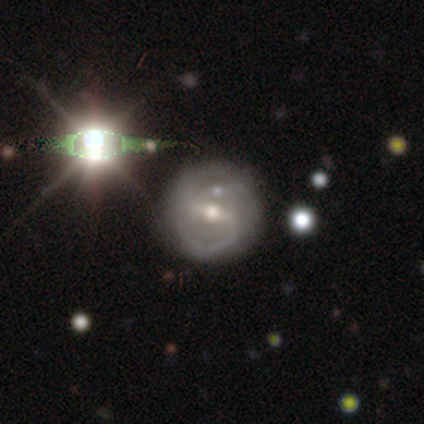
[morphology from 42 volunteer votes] Volunteers were most divided on "bar": strong: 53%, weak: 47%, no: 0%. More confident: edge-on disk — no (97%); spiral arms — yes (91%); spiral arm count — 2 (87%); smooth or featured — featured or disk (83%); merging — none (74%); bulge size — moderate (71%); spiral winding — medium (65%).